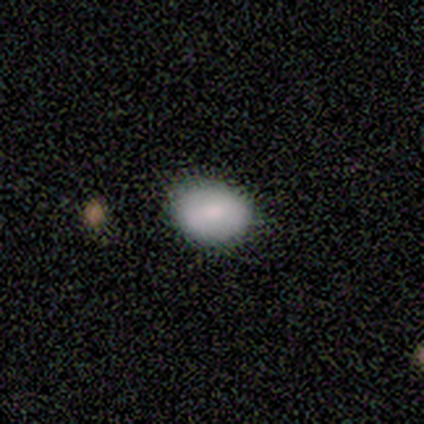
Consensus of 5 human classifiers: Smooth or featured? 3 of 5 (60%) said smooth. How rounded? 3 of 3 (100%) said in between. Merging? 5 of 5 (100%) said none.